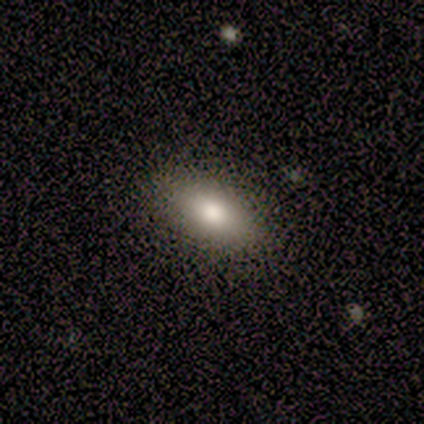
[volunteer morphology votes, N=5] smooth 100%, featured or disk 0%, star or artifact 0%. Down the decision tree: how rounded — in between (80%); merging — none (100%).